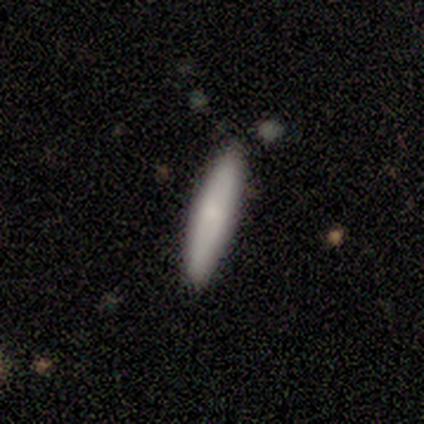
Smooth or featured: smooth — 93% (featured or disk — 7%)
How rounded: cigar-shaped — 85% (in between — 15%)
Merging: none — 100%